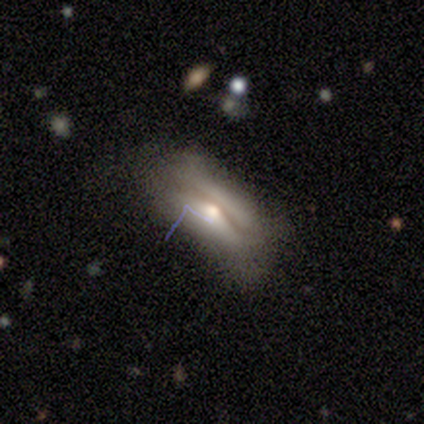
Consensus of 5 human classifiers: This appears to be a featured or disk galaxy (60%) with a strong bar (50%, tied with no), no spiral arms (100%) and a moderate central bulge (100%). Merging: none (80%).